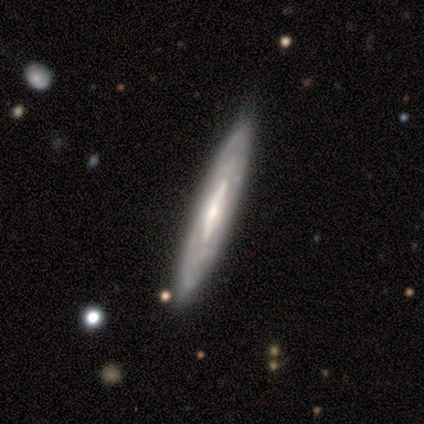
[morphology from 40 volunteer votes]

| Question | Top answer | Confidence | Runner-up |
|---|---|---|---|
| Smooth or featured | featured or disk | 92% | smooth (8%) |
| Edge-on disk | yes | 51% | no (49%) |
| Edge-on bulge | rounded | 47% | none (37%) |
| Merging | none | 55% | minor disturbance (15%) |